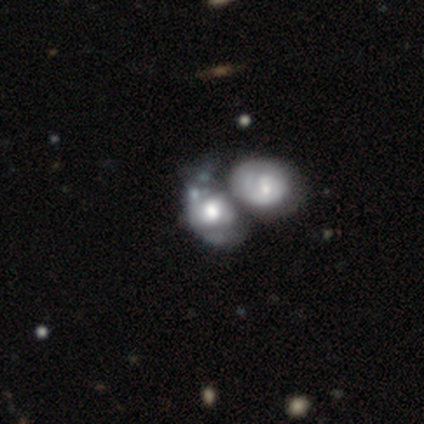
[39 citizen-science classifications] Smooth or featured: featured or disk — 54% (smooth — 46%)
Edge-on disk: no — 95% (yes — 5%)
Bar: no — 80% (strong — 10%)
Spiral arms: no — 65% (yes — 35%)
Bulge size: large — 50% (moderate — 30%)
Merging: merger — 72% (major disturbance — 21%)